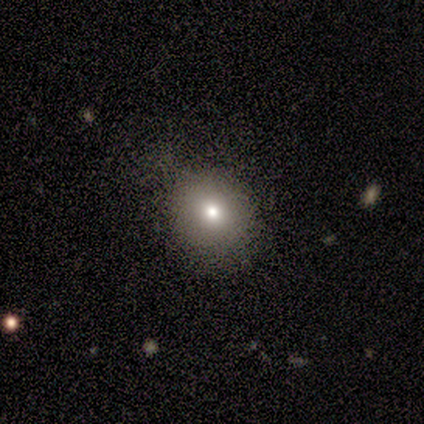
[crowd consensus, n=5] Smooth or featured: smooth — 80% (featured or disk — 20%)
How rounded: round — 100%
Merging: none — 100%